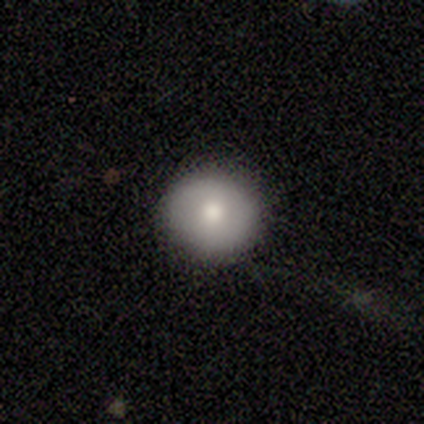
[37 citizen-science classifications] This appears to be a smooth galaxy with no disk features (73%) that is round (89%). Merging: none (97%).